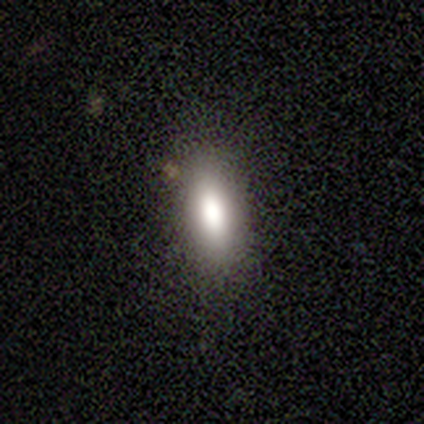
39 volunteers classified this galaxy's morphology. Smooth or featured? 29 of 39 (74%) said smooth. How rounded? 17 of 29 (59%) said in between. Merging? 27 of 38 (71%) said none.